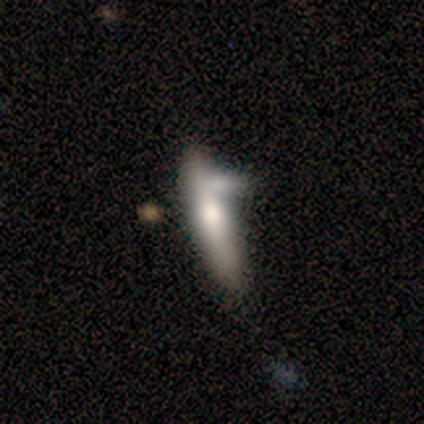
Smooth or featured?
  - smooth: 60% *
  - featured or disk: 20%
  - star or artifact: 20%
How rounded?
  - cigar-shaped: 100% *
  - round: 0%
  - in between: 0%
Merging?
  - minor disturbance: 50% *
  - none: 25%
  - merger: 25%
  - major disturbance: 0%